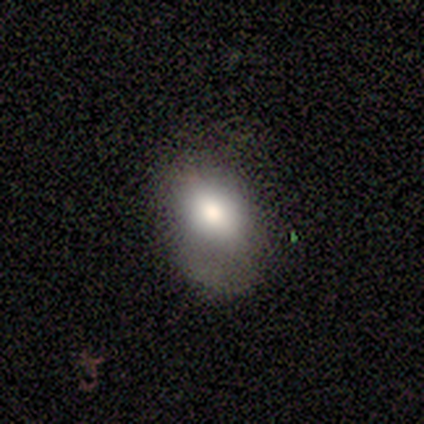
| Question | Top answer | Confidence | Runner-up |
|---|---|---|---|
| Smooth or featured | featured or disk | 60% | smooth (40%) |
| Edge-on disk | no | 100% | — |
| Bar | no | 67% | weak (33%) |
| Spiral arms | yes | 67% | no (33%) |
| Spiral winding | medium | 100% | — |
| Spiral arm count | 2 | 100% | — |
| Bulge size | large | 67% | dominant (33%) |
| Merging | minor disturbance | 40% | tied: major disturbance (40%) |